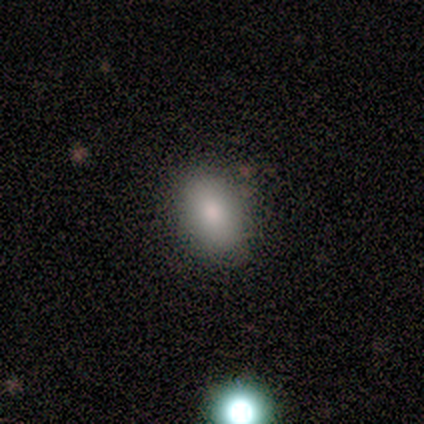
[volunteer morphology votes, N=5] This is clearly a smooth galaxy (100%). How rounded: likely in between (60%). Merging: clearly none (100%).